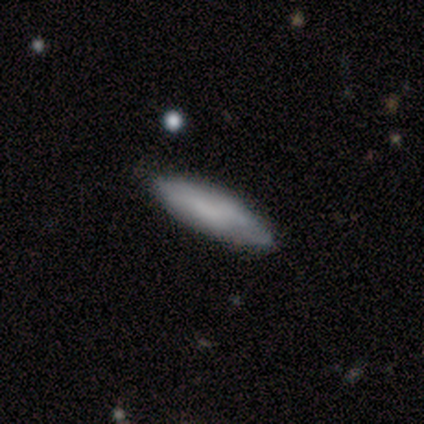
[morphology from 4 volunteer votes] Overall: smooth (75%). How rounded: cigar-shaped (67%; in between 33%). Merging: none (50%, tied with minor disturbance).